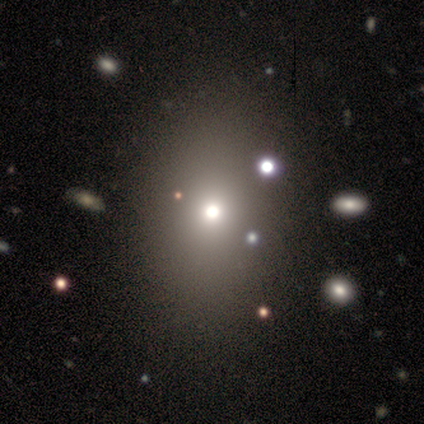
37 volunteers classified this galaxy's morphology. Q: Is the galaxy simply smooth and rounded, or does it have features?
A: smooth — 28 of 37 (76%).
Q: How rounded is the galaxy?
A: in between — 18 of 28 (64%).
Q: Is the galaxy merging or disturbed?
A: none — 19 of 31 (61%).